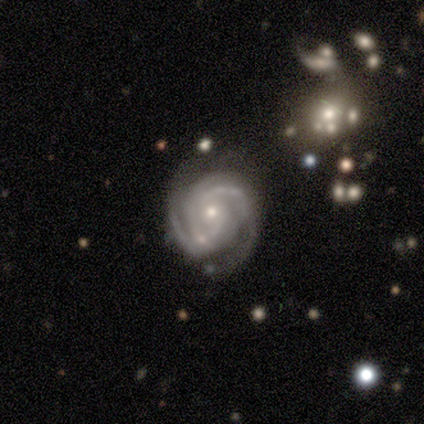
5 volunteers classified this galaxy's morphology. Smooth or featured? featured or disk (100%)
Edge-on disk? no (100%)
Bar? no (80%)
Spiral arms? yes (100%)
Spiral winding? tight (60%)
Spiral arm count? 3 (40%)
Bulge size? small (100%)
Merging? none (60%)